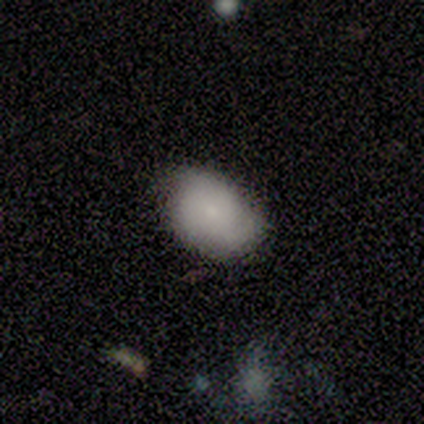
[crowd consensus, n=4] Morphology: type=smooth (100%); roundness=in between (75%); merging=none (50%, tied with minor disturbance).